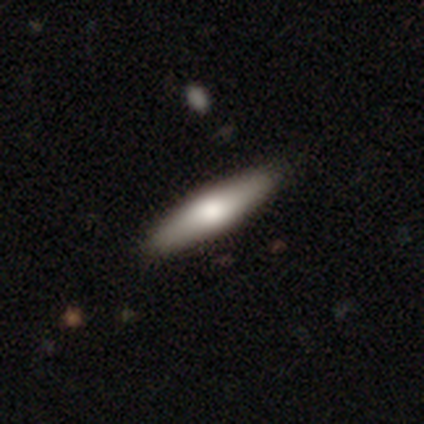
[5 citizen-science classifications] Overall: featured or disk (60%; smooth 40%). Edge-on disk: yes (100%). Edge-on bulge: rounded (100%). Merging: none (80%).